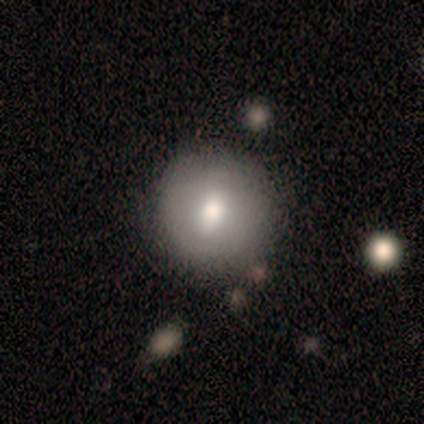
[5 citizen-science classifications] featured or disk 60%, smooth 40%, star or artifact 0%. Down the decision tree: edge-on disk — no (67%); bar — weak (50%, tied with no); spiral arms — no (100%); bulge size — moderate (100%); merging — none (60%).